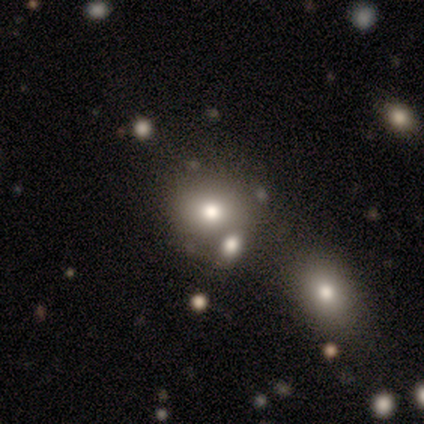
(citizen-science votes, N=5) smooth 80%, star or artifact 20%, featured or disk 0%. Down the decision tree: how rounded — round (100%); merging — none (100%).